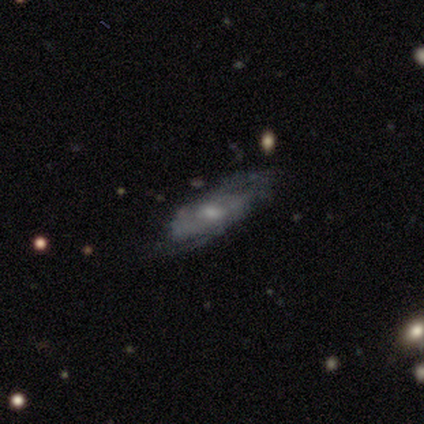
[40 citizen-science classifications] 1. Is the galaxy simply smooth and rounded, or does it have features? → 78% featured or disk, 12% smooth, 10% star or artifact.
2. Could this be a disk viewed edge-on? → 81% no, 19% yes.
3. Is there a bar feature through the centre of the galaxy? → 56% no, 36% weak, 8% strong.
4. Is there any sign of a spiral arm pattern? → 80% yes, 20% no.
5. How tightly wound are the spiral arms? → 55% tight, 45% medium, 0% loose.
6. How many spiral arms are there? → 70% can't tell, 15% 2, 15% 3, 0% 1, 0% 4, 0% more than 4.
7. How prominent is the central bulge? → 48% small, 40% moderate, 12% none, 0% dominant, 0% large.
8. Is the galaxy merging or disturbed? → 53% none, 33% minor disturbance, 8% major disturbance, 6% merger.